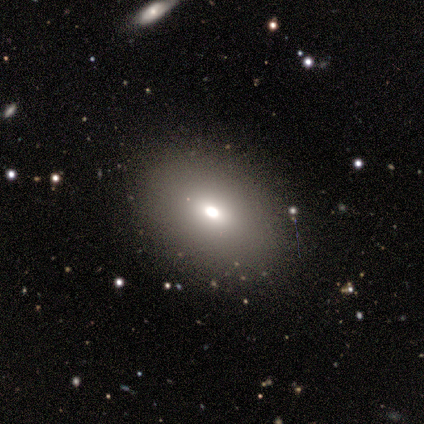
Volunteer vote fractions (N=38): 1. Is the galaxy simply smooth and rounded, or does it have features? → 79% smooth, 13% featured or disk, 8% star or artifact.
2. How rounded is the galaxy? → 87% in between, 13% round, 0% cigar-shaped.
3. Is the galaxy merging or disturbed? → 94% none, 6% minor disturbance, 0% major disturbance, 0% merger.